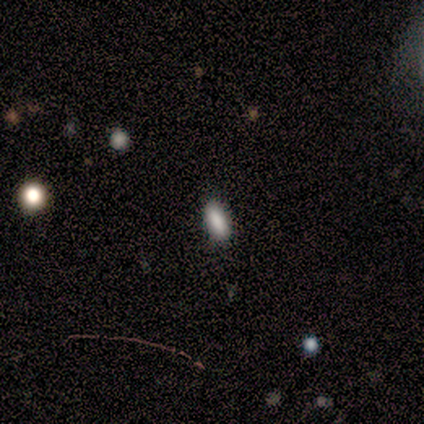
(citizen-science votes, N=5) smooth-or-featured: smooth: 80% | star or artifact: 20% | featured or disk: 0%
  how-rounded: in between: 50% (tied) | cigar-shaped: 50% (tied) | round: 0%
  merging: none: 50% (tied) | minor disturbance: 50% (tied) | major disturbance: 0% | merger: 0%